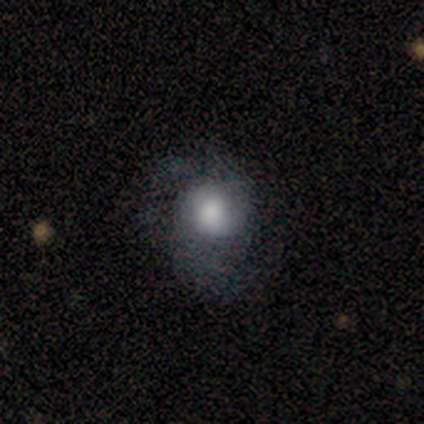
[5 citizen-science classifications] A featured or disk galaxy (60%) with no bar (67%), 2 (100%) medium (67%) spiral arms (100%) and a large central bulge (100%). Merging: none (40%, tied with major disturbance).